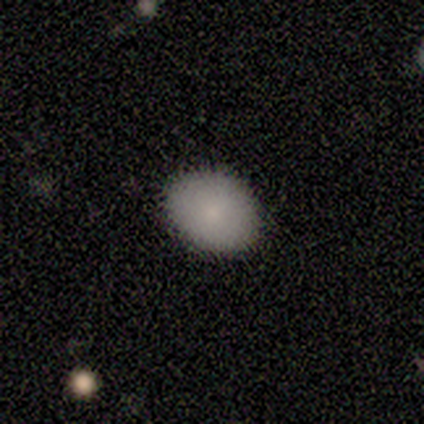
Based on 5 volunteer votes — smooth-or-featured: smooth: 100% | featured or disk: 0% | star or artifact: 0%
  how-rounded: in between: 60% | round: 40% | cigar-shaped: 0%
  merging: none: 80% | minor disturbance: 20% | major disturbance: 0% | merger: 0%